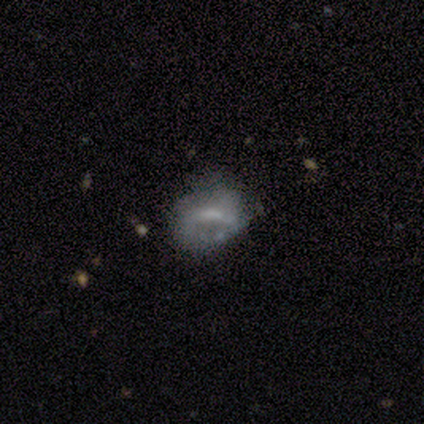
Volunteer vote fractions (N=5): featured or disk 60%, smooth 40%, star or artifact 0%. Down the decision tree: edge-on disk — no (100%); bar — weak (67%); spiral arms — yes (67%); spiral arm count — 1 (50%, tied with 2); spiral winding — medium (50%, tied with loose); bulge size — small (100%); merging — none (60%).